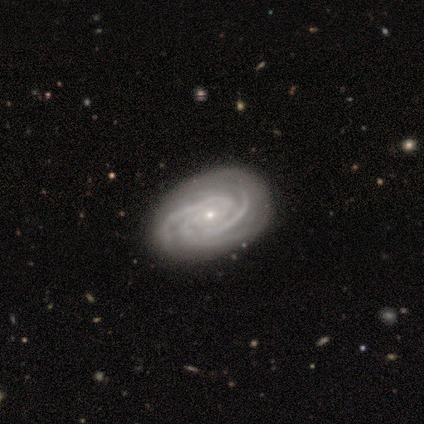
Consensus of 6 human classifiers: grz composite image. It shows a featured or disk galaxy (100%) with a weak bar (50%), 3 (83%) tight (67%) spiral arms (100%) and a small central bulge (67%). Merging: none (100%).